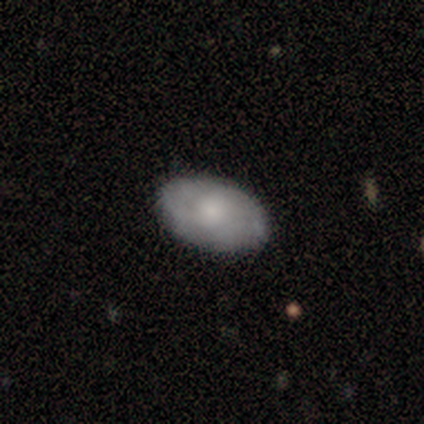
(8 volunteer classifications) A smooth galaxy with no disk features (50%, tied with featured or disk) that is in between round and cigar-shaped (100%).

Vote fractions:
- Smooth or featured? smooth: 50% (tied) / featured or disk: 50% (tied) / star or artifact: 0%
- How rounded? in between: 100% / round: 0% / cigar-shaped: 0%
- Merging? none: 100% / minor disturbance: 0% / major disturbance: 0% / merger: 0%